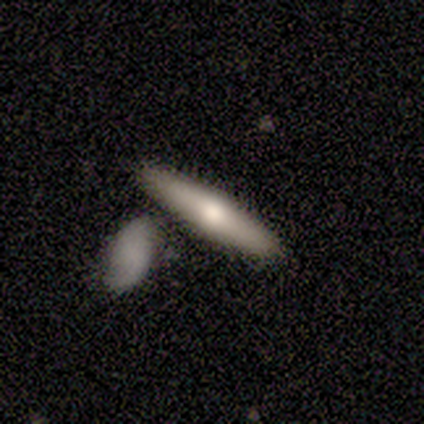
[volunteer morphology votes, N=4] This is likely a smooth galaxy (75%). How rounded: likely cigar-shaped (67%). Merging: possibly none (50%, tied with merger).